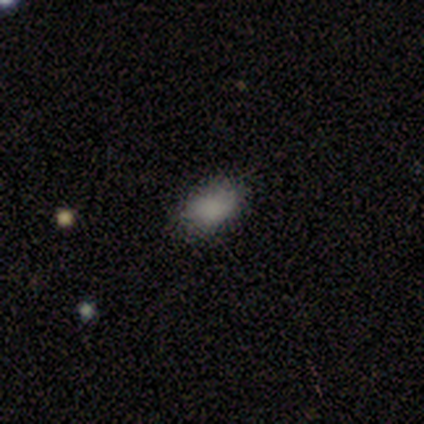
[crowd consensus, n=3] Volunteers were most divided on "smooth or featured": smooth: 67%, featured or disk: 33%, star or artifact: 0%. More confident: how rounded — in between (100%); merging — none (67%).